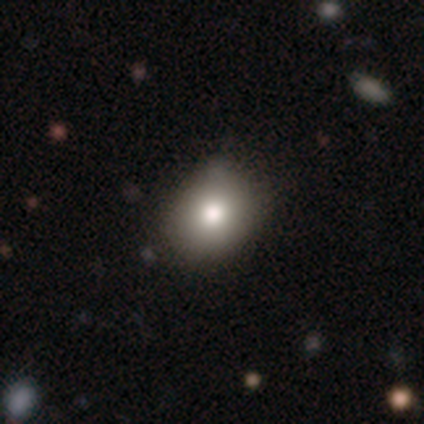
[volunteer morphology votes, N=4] smooth 75%, star or artifact 25%, featured or disk 0%. Down the decision tree: how rounded — in between (100%); merging — none (67%).